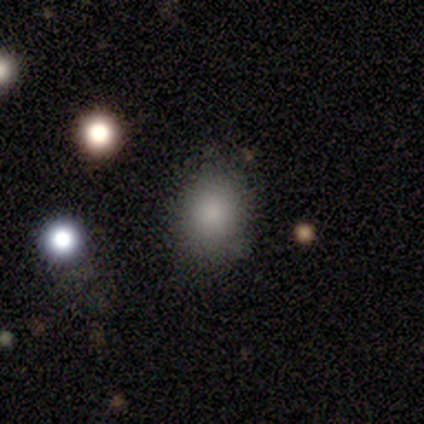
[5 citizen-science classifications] This is clearly a smooth galaxy (80%). How rounded: possibly round (50%, tied with in between). Merging: clearly none (100%).